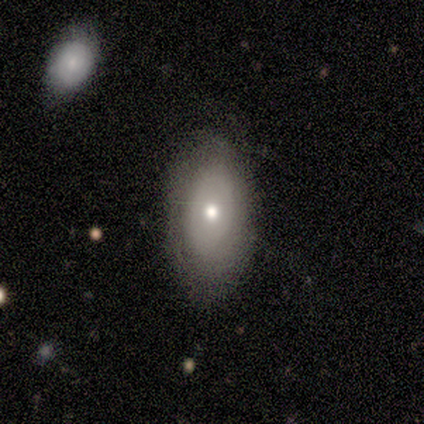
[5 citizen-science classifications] smooth 80%, featured or disk 20%, star or artifact 0%. Down the decision tree: how rounded — in between (100%); merging — none (100%).